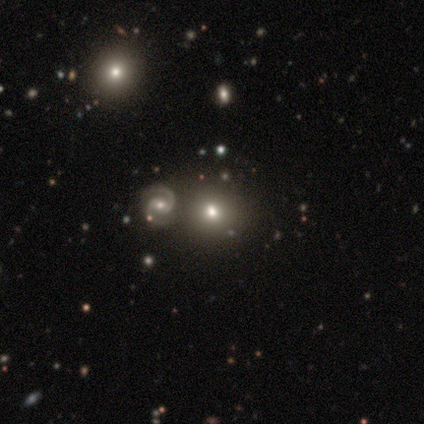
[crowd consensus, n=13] A smooth galaxy with no disk features (54%) that is round (86%). Merging: none (60%).